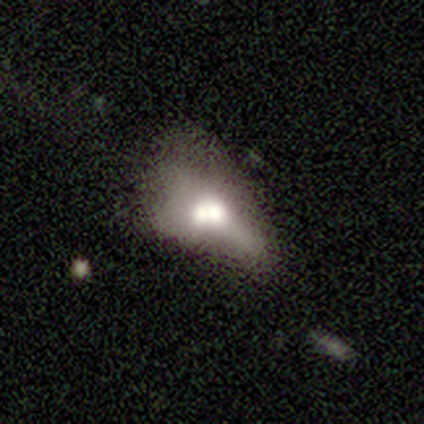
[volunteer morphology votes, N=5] Smooth or featured?
  - smooth: 40% * (tied)
  - featured or disk: 40% * (tied)
  - star or artifact: 20%
How rounded?
  - round: 50% * (tied)
  - in between: 50% * (tied)
  - cigar-shaped: 0%
Merging?
  - merger: 75% *
  - minor disturbance: 25%
  - none: 0%
  - major disturbance: 0%